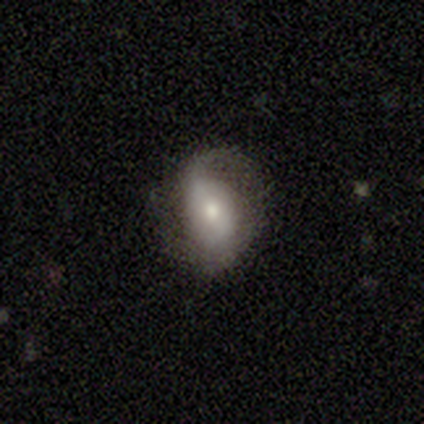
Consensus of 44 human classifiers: Volunteers were most divided on "bar": weak: 41%, no: 31%, strong: 28%. More confident: edge-on disk — no (100%); spiral arms — yes (86%); bulge size — moderate (69%); smooth or featured — featured or disk (66%); spiral arm count — 2 (60%); merging — none (55%); spiral winding — loose (52%).